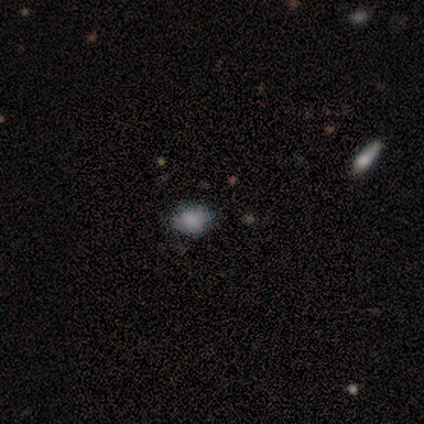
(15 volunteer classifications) Volunteers were most divided on "how rounded": in between: 64%, round: 36%, cigar-shaped: 0%. More confident: smooth or featured — smooth (73%); merging — none (67%).